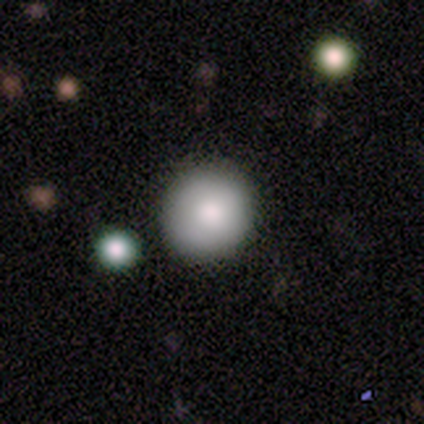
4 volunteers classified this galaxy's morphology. This is likely a smooth galaxy (75%). How rounded: clearly round (100%). Merging: likely none (75%).